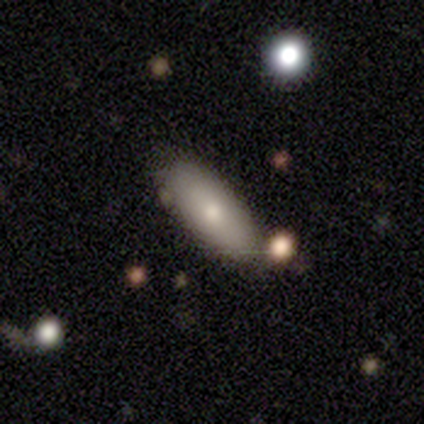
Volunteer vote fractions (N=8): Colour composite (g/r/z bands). It shows a smooth galaxy with no disk features (75%) that is in between round and cigar-shaped (83%). Merging: none (50%).